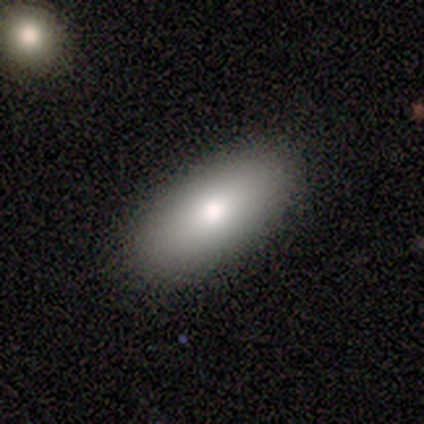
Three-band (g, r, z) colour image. It shows a smooth galaxy with no disk features (80%) that is in between round and cigar-shaped (100%). Merging: none (80%).